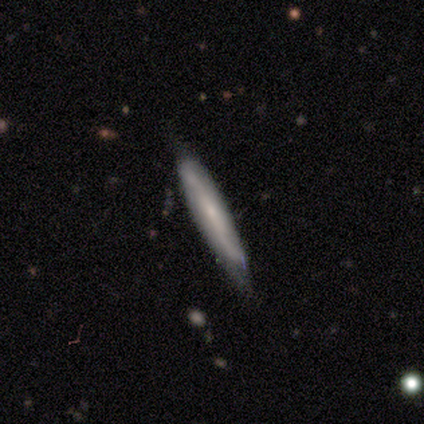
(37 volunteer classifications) This is possibly a featured or disk galaxy (57%). It is likely viewed edge-on (62%). Edge-on bulge: possibly rounded (54%). Merging: marginally none (38%).